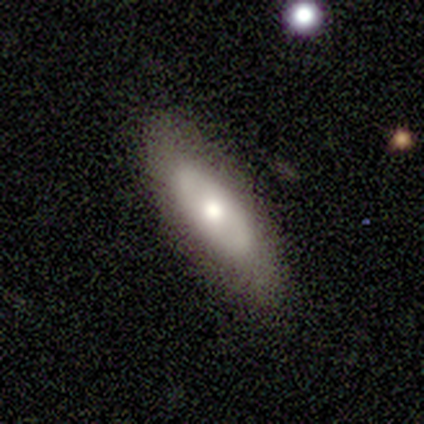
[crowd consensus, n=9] A smooth galaxy with no disk features (67%) that is in between round and cigar-shaped (100%). Merging: none (88%).